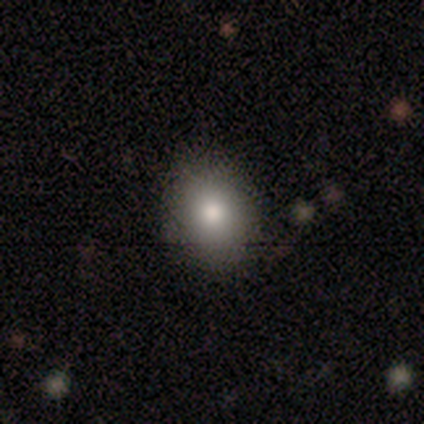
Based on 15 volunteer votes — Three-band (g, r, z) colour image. It shows a smooth galaxy with no disk features (80%) that is round (50%, tied with in between). Merging: none (93%).